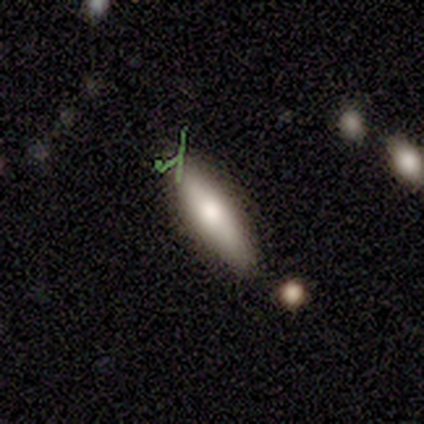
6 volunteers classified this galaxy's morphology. Smooth or featured?
  - smooth: 50% * (tied)
  - featured or disk: 50% * (tied)
  - star or artifact: 0%
How rounded?
  - cigar-shaped: 67% *
  - in between: 33%
  - round: 0%
Merging?
  - none: 83% *
  - minor disturbance: 17%
  - major disturbance: 0%
  - merger: 0%